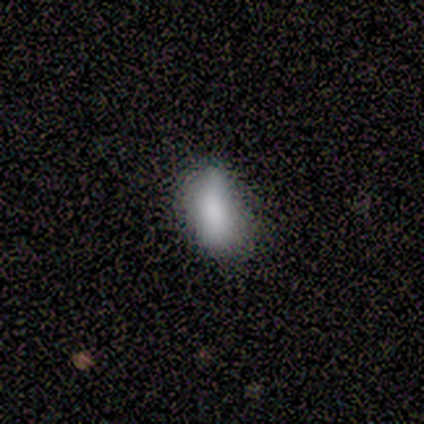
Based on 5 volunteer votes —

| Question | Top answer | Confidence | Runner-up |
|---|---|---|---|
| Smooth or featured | smooth | 80% | star or artifact (20%) |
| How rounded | in between | 50% | round (25%) |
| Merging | none | 100% | — |